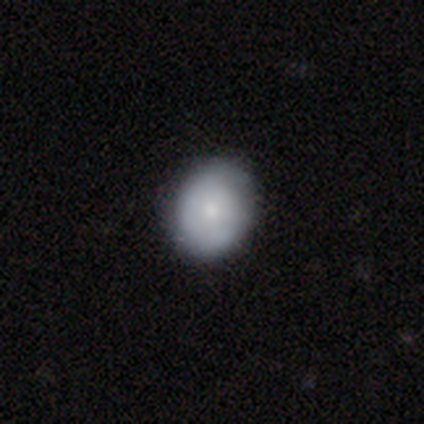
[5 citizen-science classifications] A featured or disk galaxy (60%) with no bar (100%), tight (100%) spiral arms (100%) and a moderate central bulge (67%).

Vote fractions:
- Smooth or featured? featured or disk: 60% / smooth: 40% / star or artifact: 0%
- Edge-on disk? no: 100% / yes: 0%
- Bar? no: 100% / strong: 0% / weak: 0%
- Spiral arms? yes: 100% / no: 0%
- Spiral winding? tight: 100% / medium: 0% / loose: 0%
- Spiral arm count? can't tell: 100% / 1: 0% / 2: 0% / 3: 0% / 4: 0% / more than 4: 0%
- Bulge size? moderate: 67% / small: 33% / dominant: 0% / large: 0% / none: 0%
- Merging? none: 60% / minor disturbance: 40% / major disturbance: 0% / merger: 0%